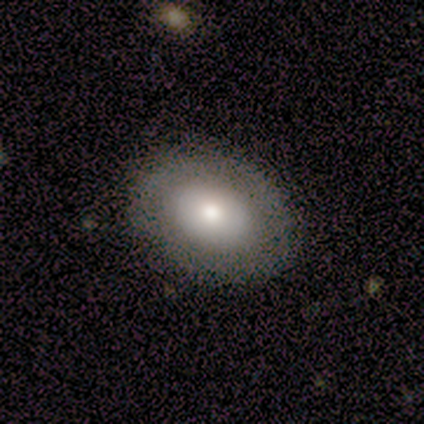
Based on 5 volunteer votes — Q: Smooth or featured?
A: smooth (100%)
Q: How rounded?
A: in between (100%)
Q: Merging?
A: none (100%)